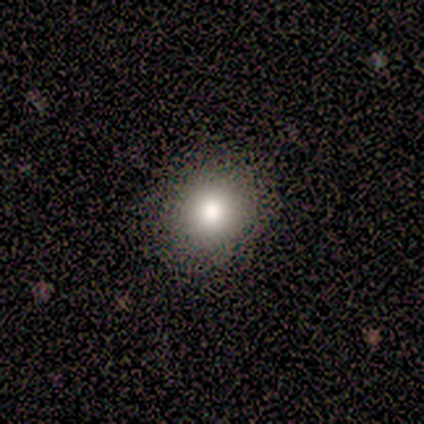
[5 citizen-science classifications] Volunteers were most divided on "how rounded": round: 75%, in between: 25%, cigar-shaped: 0%. More confident: smooth or featured — smooth (80%); merging — none (75%).